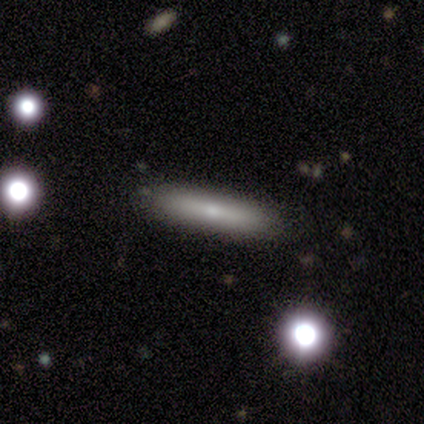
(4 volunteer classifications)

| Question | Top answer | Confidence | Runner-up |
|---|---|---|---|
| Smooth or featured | smooth | 75% | featured or disk (25%) |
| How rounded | cigar-shaped | 100% | — |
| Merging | none | 100% | — |